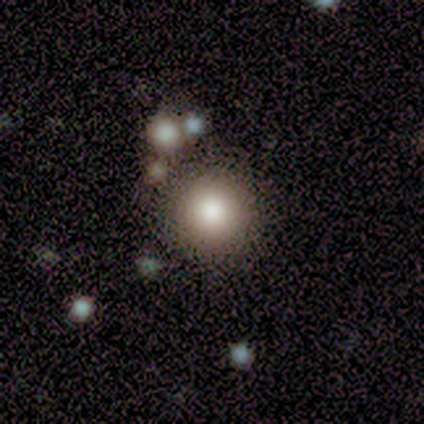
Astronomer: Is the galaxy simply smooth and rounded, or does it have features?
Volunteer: smooth — 80%.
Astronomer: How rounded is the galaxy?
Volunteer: round — 75%.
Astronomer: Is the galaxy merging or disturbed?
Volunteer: none — 100%.